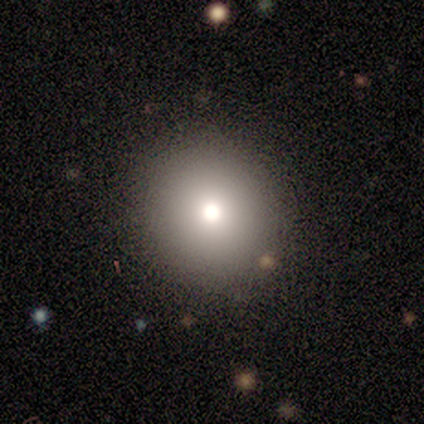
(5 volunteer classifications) Volunteers were most divided on "smooth or featured": smooth: 60%, star or artifact: 40%, featured or disk: 0%. More confident: merging — none (100%); how rounded — round (67%).